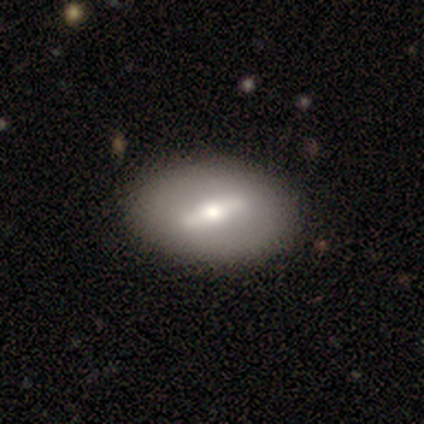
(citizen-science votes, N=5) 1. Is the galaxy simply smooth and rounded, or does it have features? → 80% featured or disk, 20% smooth, 0% star or artifact.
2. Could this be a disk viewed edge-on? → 100% no, 0% yes.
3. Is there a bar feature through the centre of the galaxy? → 100% strong, 0% weak, 0% no.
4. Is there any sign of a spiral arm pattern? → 75% no, 25% yes.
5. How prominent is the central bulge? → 75% moderate, 25% small, 0% dominant, 0% large, 0% none.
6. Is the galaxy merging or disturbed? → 80% none, 20% major disturbance, 0% minor disturbance, 0% merger.